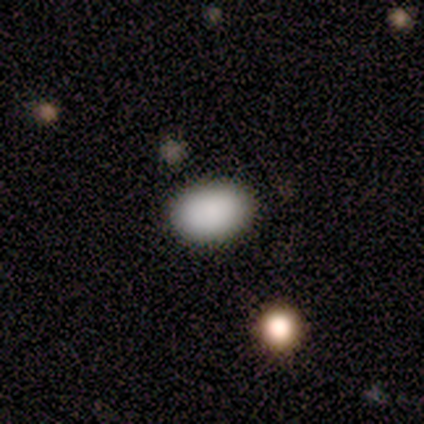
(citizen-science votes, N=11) Smooth or featured? 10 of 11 (91%) said smooth. How rounded? 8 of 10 (80%) said in between. Merging? 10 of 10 (100%) said none.